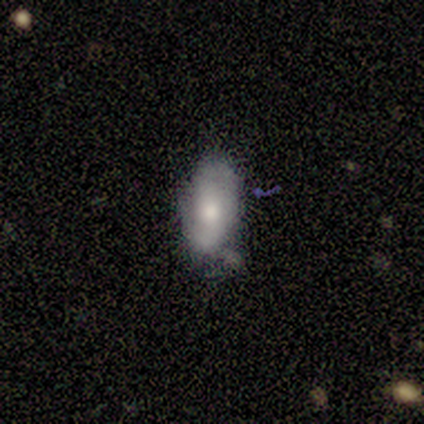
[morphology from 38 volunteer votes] Smooth or featured? smooth (47%)
How rounded? in between (94%)
Merging? none (51%)